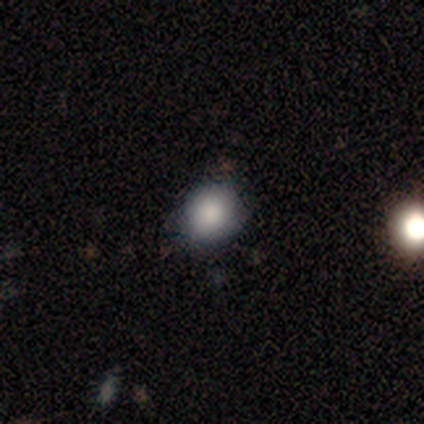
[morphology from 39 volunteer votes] Smooth or featured? smooth (87%)
How rounded? round (88%)
Merging? none (53%)